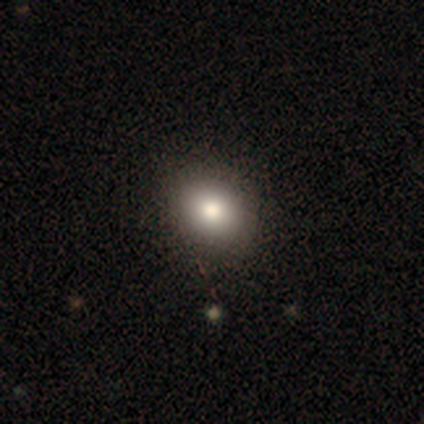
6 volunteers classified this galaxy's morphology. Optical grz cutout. It shows a smooth galaxy with no disk features (83%) that is round (60%). Merging: none (100%).